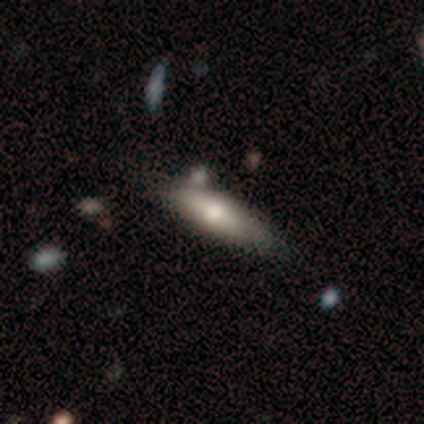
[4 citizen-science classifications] Smooth or featured?
  - smooth: 100% *
  - featured or disk: 0%
  - star or artifact: 0%
How rounded?
  - cigar-shaped: 75% *
  - in between: 25%
  - round: 0%
Merging?
  - none: 50% * (tied)
  - minor disturbance: 50% * (tied)
  - major disturbance: 0%
  - merger: 0%